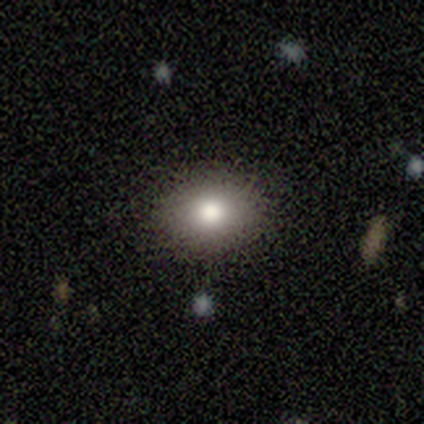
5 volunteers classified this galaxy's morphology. Smooth or featured?
  - smooth: 100% *
  - featured or disk: 0%
  - star or artifact: 0%
How rounded?
  - in between: 60% *
  - round: 40%
  - cigar-shaped: 0%
Merging?
  - none: 100% *
  - minor disturbance: 0%
  - major disturbance: 0%
  - merger: 0%